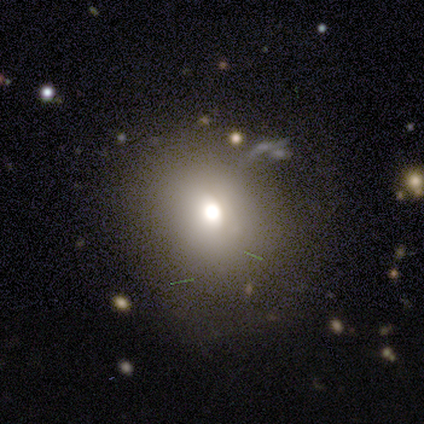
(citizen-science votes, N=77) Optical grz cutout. It shows a smooth galaxy with no disk features (74%) that is round (82%). Merging: none (34%).